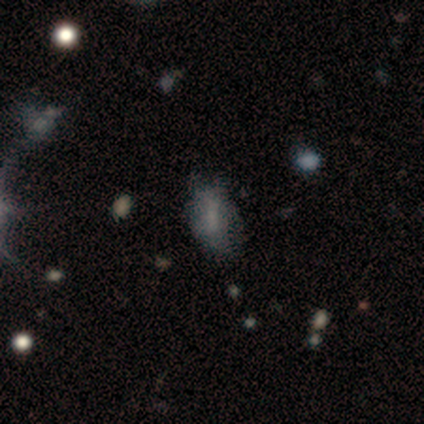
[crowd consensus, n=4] Smooth or featured?
  - smooth: 100% *
  - featured or disk: 0%
  - star or artifact: 0%
How rounded?
  - in between: 100% *
  - round: 0%
  - cigar-shaped: 0%
Merging?
  - major disturbance: 75% *
  - none: 25%
  - minor disturbance: 0%
  - merger: 0%